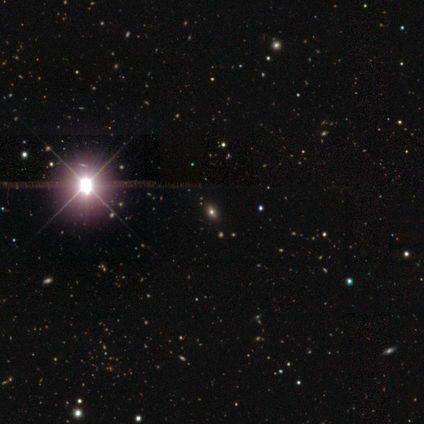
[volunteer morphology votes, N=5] star or artifact 80%, smooth 20%, featured or disk 0%.